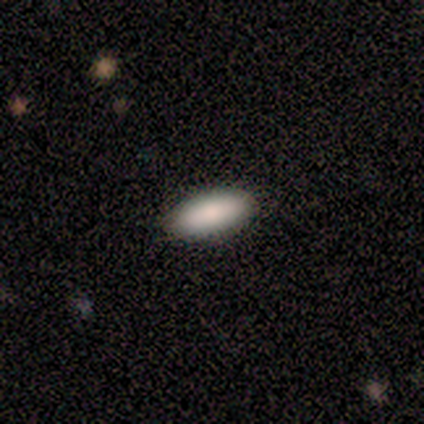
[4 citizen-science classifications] Smooth or featured?
  - smooth: 100% *
  - featured or disk: 0%
  - star or artifact: 0%
How rounded?
  - in between: 75% *
  - cigar-shaped: 25%
  - round: 0%
Merging?
  - none: 100% *
  - minor disturbance: 0%
  - major disturbance: 0%
  - merger: 0%